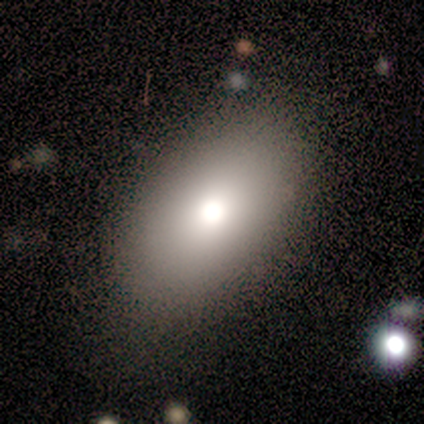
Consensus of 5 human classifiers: smooth 100%, featured or disk 0%, star or artifact 0%. Down the decision tree: how rounded — in between (80%); merging — none (80%).